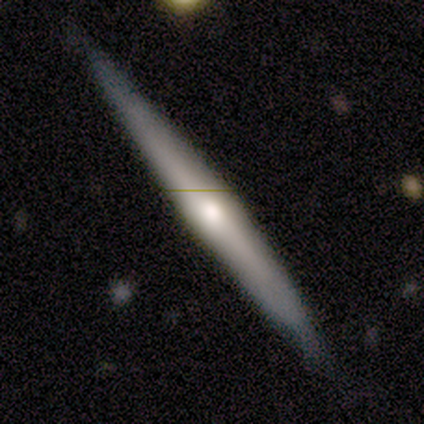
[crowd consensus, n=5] Overall: featured or disk (100%). Edge-on disk: yes (100%). Edge-on bulge: rounded (80%). Merging: none (80%).